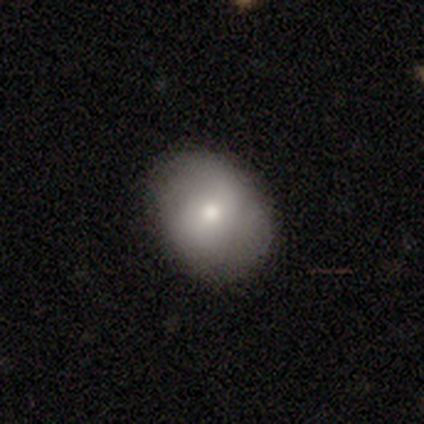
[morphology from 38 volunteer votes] A smooth galaxy with no disk features (66%) that is in between round and cigar-shaped (68%). Merging: none (83%).